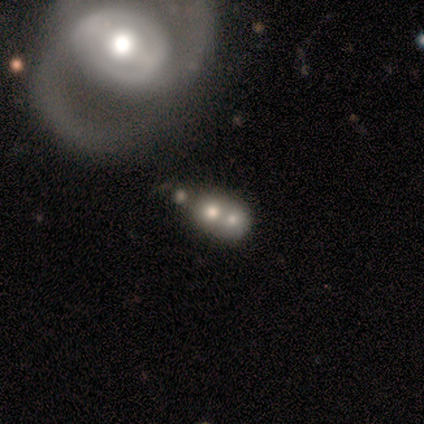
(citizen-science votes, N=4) A smooth galaxy with no disk features (50%, tied with featured or disk) that is round (100%).

Vote fractions:
- Smooth or featured? smooth: 50% (tied) / featured or disk: 50% (tied) / star or artifact: 0%
- How rounded? round: 100% / in between: 0% / cigar-shaped: 0%
- Merging? merger: 75% / none: 25% / minor disturbance: 0% / major disturbance: 0%